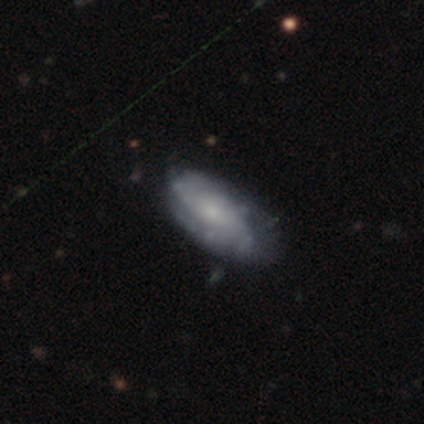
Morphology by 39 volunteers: A featured or disk galaxy (77%) with no bar (69%), 2 (48%) tight (52%) spiral arms (88%) and a small central bulge (65%). Merging: none (55%).